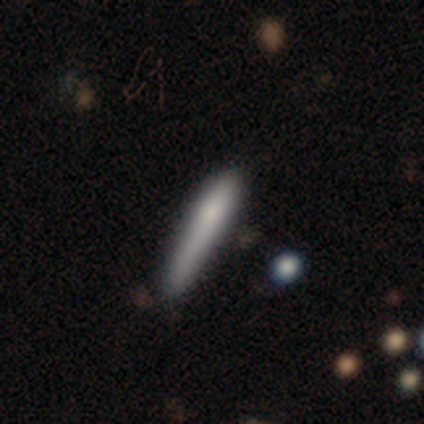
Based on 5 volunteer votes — A smooth galaxy with no disk features (40%, tied with featured or disk) that is cigar-shaped (100%).

Vote fractions:
- Smooth or featured? smooth: 40% (tied) / featured or disk: 40% (tied) / star or artifact: 20%
- How rounded? cigar-shaped: 100% / round: 0% / in between: 0%
- Merging? none: 25% (tied) / minor disturbance: 25% (tied) / major disturbance: 25% (tied) / merger: 25% (tied)